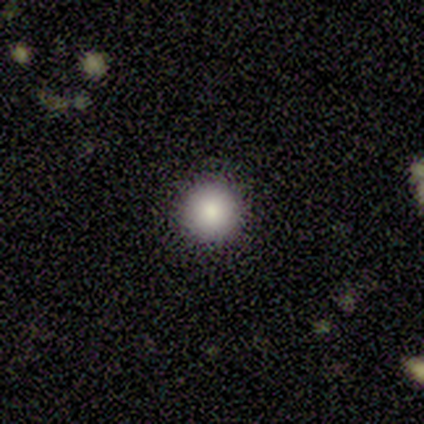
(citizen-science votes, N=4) smooth_or_featured: smooth (p=1.00)
how_rounded: round (p=1.00)
merging: none (p=1.00)